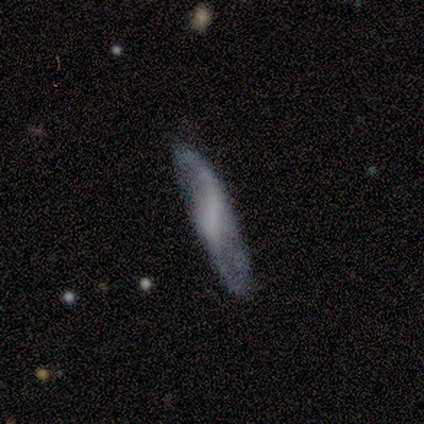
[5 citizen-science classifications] Morphology: type=featured or disk (80%); edge-on=no (75%); bar=no (67%); spiral arms=yes (67%); winding=loose (100%); arm count=2 (100%); bulge=none (67%); merging=none (80%).